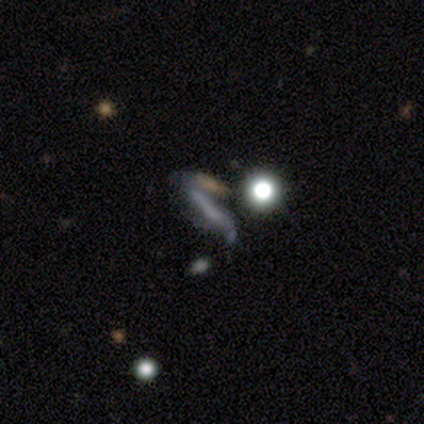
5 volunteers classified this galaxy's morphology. This appears to be a featured or disk galaxy (60%) with a weak bar (50%, tied with no), no spiral arms (100%) and a dominant central bulge (100%). Merging: none (50%, tied with merger).